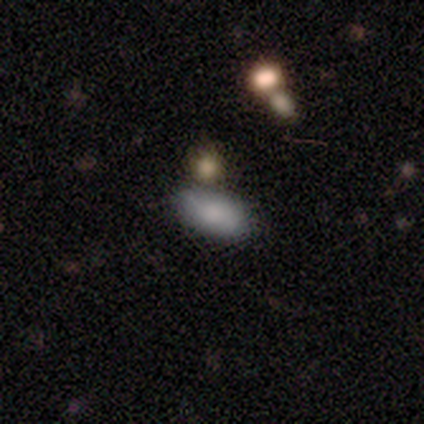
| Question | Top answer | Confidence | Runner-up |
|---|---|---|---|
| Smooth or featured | smooth | 67% | featured or disk (33%) |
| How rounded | in between | 50% | tied: cigar-shaped (50%) |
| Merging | minor disturbance | 67% | none (33%) |